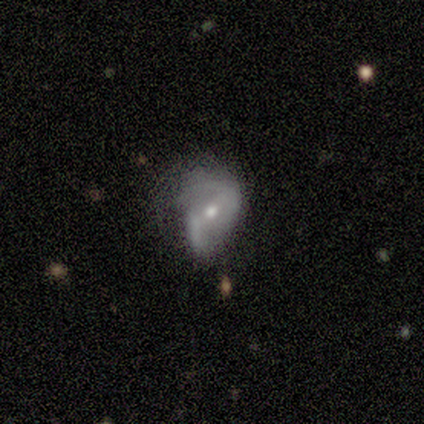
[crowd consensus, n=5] A featured or disk galaxy (100%) with a weak bar (40%, tied with no), 2 (100%) tight (40%, tied with medium) spiral arms (100%) and a small central bulge (80%). Merging: none (60%).